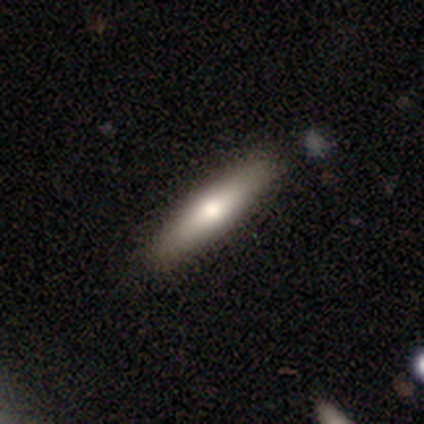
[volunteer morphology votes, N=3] Smooth or featured?
  - smooth: 100% *
  - featured or disk: 0%
  - star or artifact: 0%
How rounded?
  - cigar-shaped: 100% *
  - round: 0%
  - in between: 0%
Merging?
  - none: 100% *
  - minor disturbance: 0%
  - major disturbance: 0%
  - merger: 0%